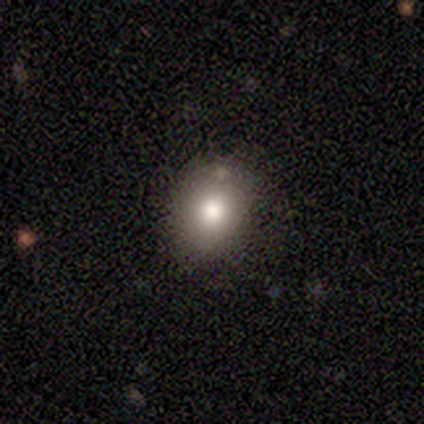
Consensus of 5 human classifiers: Smooth or featured?
  - smooth: 80% *
  - featured or disk: 20%
  - star or artifact: 0%
How rounded?
  - in between: 75% *
  - round: 25%
  - cigar-shaped: 0%
Merging?
  - none: 60% *
  - minor disturbance: 40%
  - major disturbance: 0%
  - merger: 0%